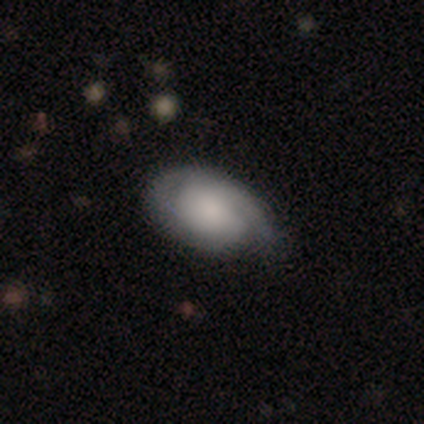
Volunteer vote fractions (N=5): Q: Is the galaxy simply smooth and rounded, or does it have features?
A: smooth — 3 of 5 (60%).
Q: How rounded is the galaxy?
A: in between — 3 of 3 (100%).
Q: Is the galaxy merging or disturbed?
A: minor disturbance — 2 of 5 (40%, tied with major disturbance).